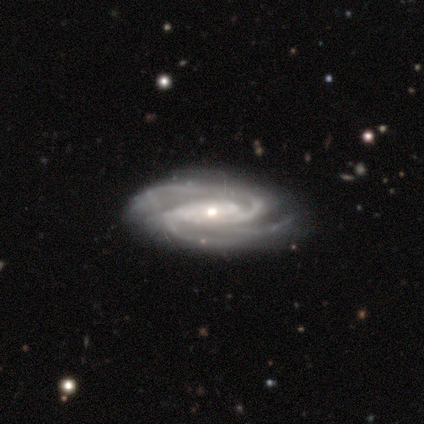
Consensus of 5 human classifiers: This is clearly a featured or disk galaxy (100%). It is clearly not viewed edge-on (100%). Bar: clearly no (80%). Spiral arm pattern: clearly yes (80%). Spiral arm count: possibly 2 (50%, tied with 3). Spiral winding: possibly tight (50%, tied with medium). Central bulge: clearly moderate (80%). Merging: clearly none (100%).